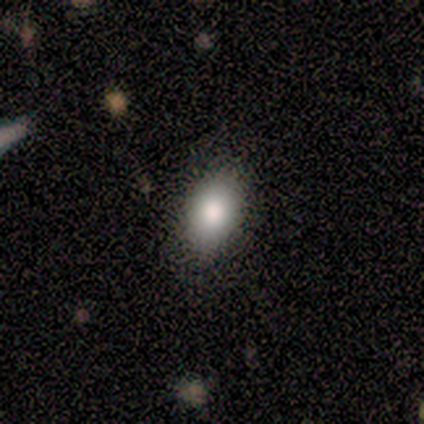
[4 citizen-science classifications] Q: Smooth or featured?
A: smooth (100%)
Q: How rounded?
A: in between (100%)
Q: Merging?
A: none (75%); runner-up: minor disturbance (25%)